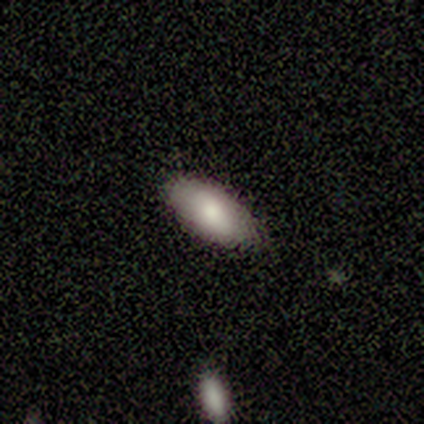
Smooth or featured? smooth (100%)
How rounded? in between (80%)
Merging? none (100%)